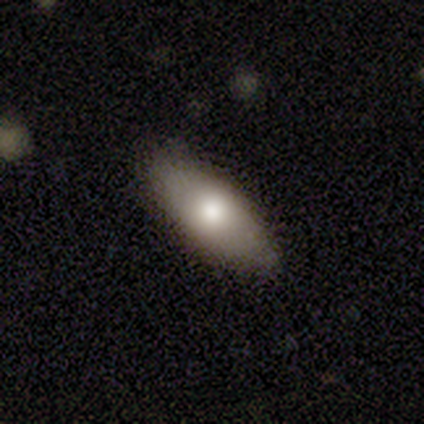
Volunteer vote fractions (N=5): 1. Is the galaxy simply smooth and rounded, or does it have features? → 80% smooth, 20% featured or disk, 0% star or artifact.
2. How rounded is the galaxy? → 100% in between, 0% round, 0% cigar-shaped.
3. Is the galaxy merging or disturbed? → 80% none, 20% minor disturbance, 0% major disturbance, 0% merger.